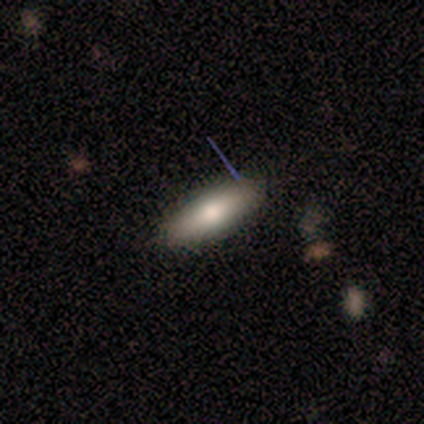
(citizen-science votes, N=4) Smooth or featured: smooth — 75% (featured or disk — 25%)
How rounded: in between — 67% (cigar-shaped — 33%)
Merging: none — 100%